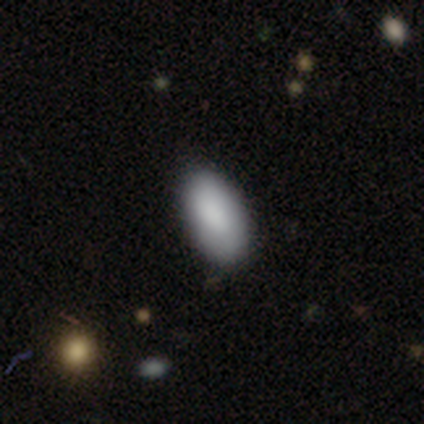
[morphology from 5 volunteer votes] A smooth galaxy with no disk features (80%) that is in between round and cigar-shaped (100%).

Vote fractions:
- Smooth or featured? smooth: 80% / featured or disk: 20% / star or artifact: 0%
- How rounded? in between: 100% / round: 0% / cigar-shaped: 0%
- Merging? none: 60% / minor disturbance: 20% / merger: 20% / major disturbance: 0%